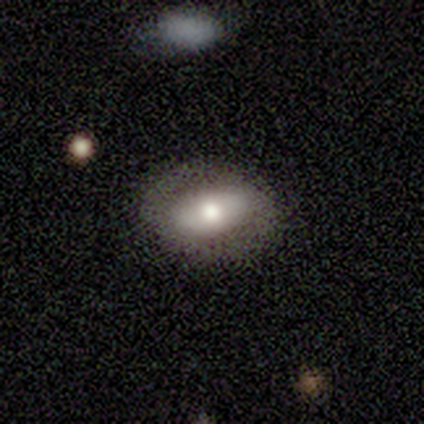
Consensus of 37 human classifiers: This appears to be a smooth galaxy with no disk features (65%) that is in between round and cigar-shaped (88%). Merging: none (78%).